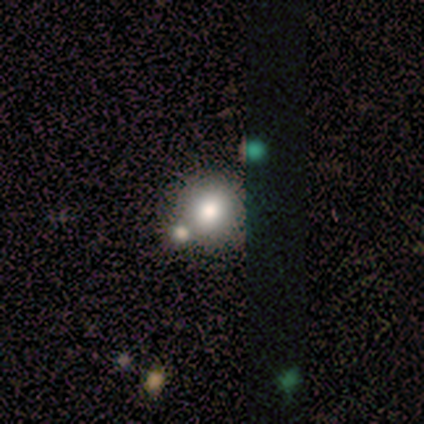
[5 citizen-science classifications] Smooth or featured?
  - smooth: 100% *
  - featured or disk: 0%
  - star or artifact: 0%
How rounded?
  - round: 80% *
  - in between: 20%
  - cigar-shaped: 0%
Merging?
  - none: 80% *
  - merger: 20%
  - minor disturbance: 0%
  - major disturbance: 0%